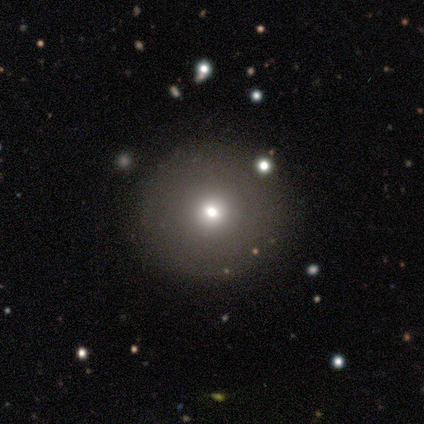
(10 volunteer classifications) This appears to be a smooth galaxy with no disk features (50%) that is round (100%). Merging: none (100%).